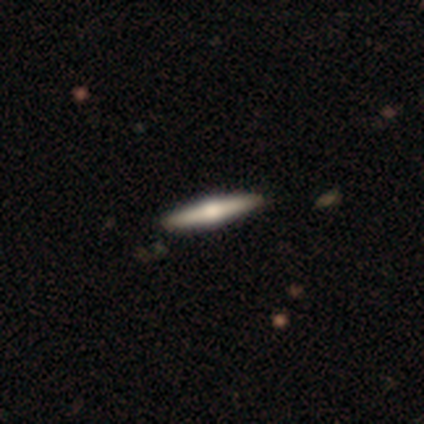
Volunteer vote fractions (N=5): Morphology: type=featured or disk (60%); edge-on=yes (100%); edge-on bulge=rounded (100%); merging=none (60%).